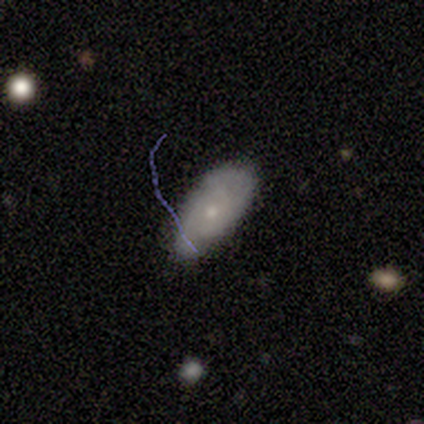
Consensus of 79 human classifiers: Q: Smooth or featured?
A: smooth (47%); runner-up: featured or disk (43%)
Q: How rounded?
A: in between (95%); runner-up: cigar-shaped (5%)
Q: Merging?
A: none (79%); runner-up: minor disturbance (17%)